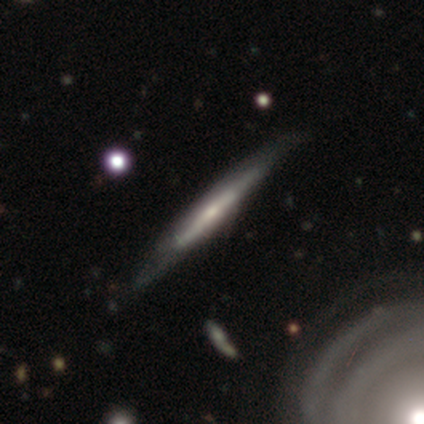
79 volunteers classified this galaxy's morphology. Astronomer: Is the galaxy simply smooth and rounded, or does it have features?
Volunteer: featured or disk — 75%.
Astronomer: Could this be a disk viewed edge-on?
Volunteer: yes — 93%.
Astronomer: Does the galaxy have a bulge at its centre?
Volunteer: none — 53% (runner-up: rounded, 33%).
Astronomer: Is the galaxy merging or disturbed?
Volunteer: none — 55%.